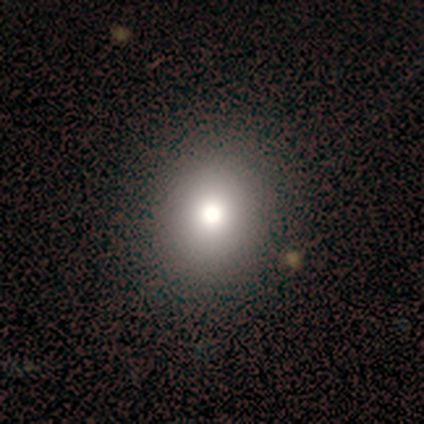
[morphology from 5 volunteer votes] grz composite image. It shows a smooth galaxy with no disk features (80%) that is round (50%, tied with in between). Merging: none (75%).